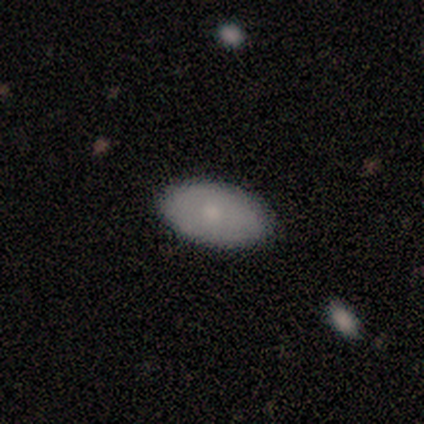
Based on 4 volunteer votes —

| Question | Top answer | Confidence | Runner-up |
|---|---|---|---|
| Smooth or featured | smooth | 75% | featured or disk (25%) |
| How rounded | in between | 100% | — |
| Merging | none | 100% | — |